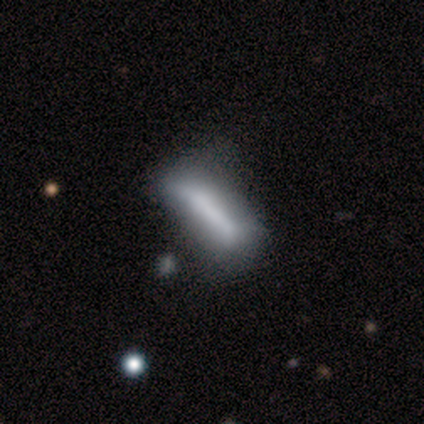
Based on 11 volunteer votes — This is likely a smooth galaxy (73%). How rounded: likely cigar-shaped (62%). Merging: likely none (64%).